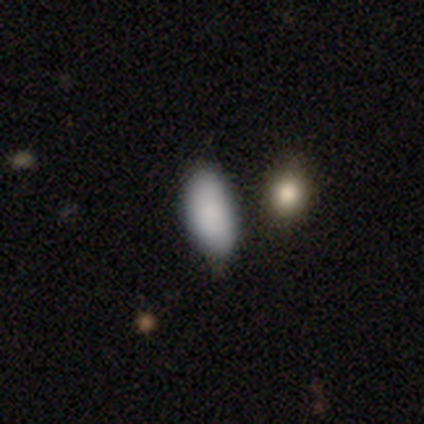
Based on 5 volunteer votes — Morphology: type=smooth (100%); roundness=in between (100%); merging=none (80%).